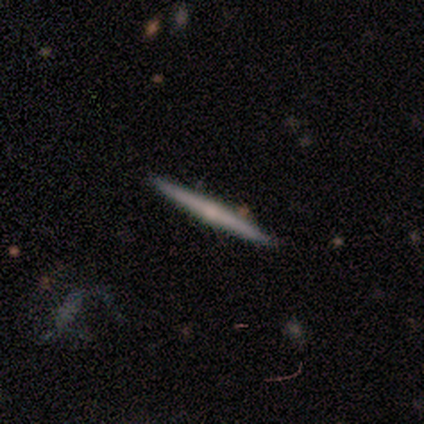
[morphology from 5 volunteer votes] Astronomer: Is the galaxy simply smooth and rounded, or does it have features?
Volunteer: featured or disk — 60% (runner-up: smooth, 40%).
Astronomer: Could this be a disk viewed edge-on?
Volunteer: yes — 100%.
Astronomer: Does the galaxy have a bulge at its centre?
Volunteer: none — 67%.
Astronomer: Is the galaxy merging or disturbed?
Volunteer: none — 80%.